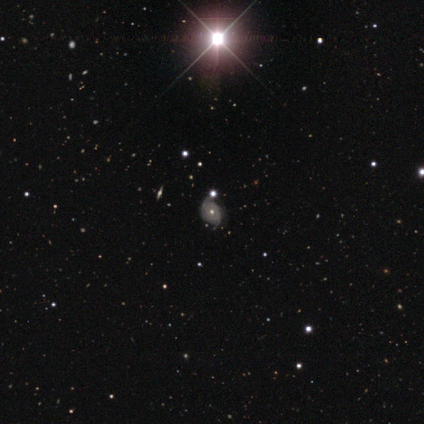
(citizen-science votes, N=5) Smooth or featured? smooth (40%, tied with featured or disk)
How rounded? round (100%)
Merging? none (75%)